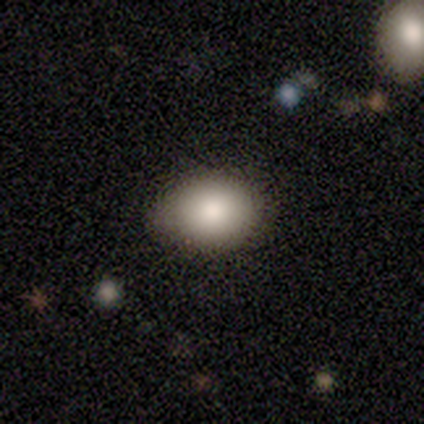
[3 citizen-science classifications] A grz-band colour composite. It shows a smooth galaxy with no disk features (100%) that is round (67%). Merging: none (100%).